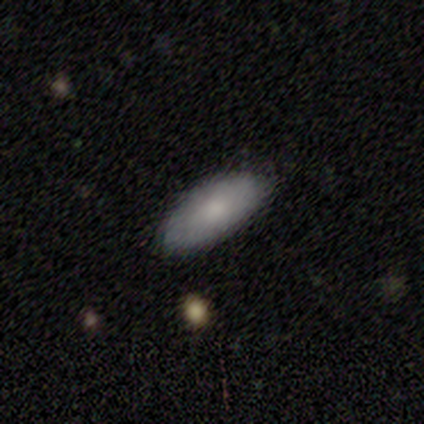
Consensus on every question: smooth or featured — smooth (100%); how rounded — in between (100%); merging — none (100%).